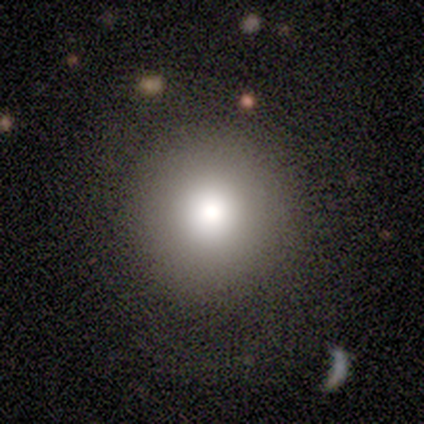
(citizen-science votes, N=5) Volunteers were most divided on "smooth or featured": smooth: 80%, featured or disk: 20%, star or artifact: 0%. More confident: how rounded — round (100%); merging — none (80%).